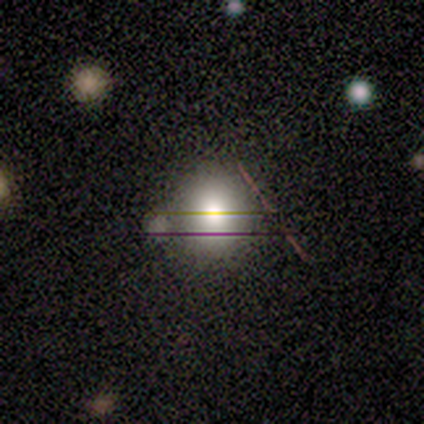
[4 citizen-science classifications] smooth_or_featured: smooth (p=0.50) [alt: featured or disk p=0.25]
how_rounded: round (p=1.00)
merging: none (p=0.67) [alt: minor disturbance p=0.33]